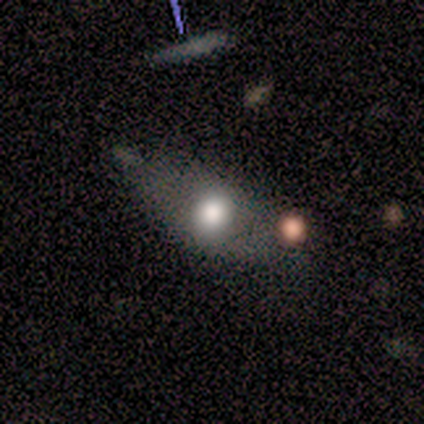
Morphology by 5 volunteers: Overall: smooth (80%). How rounded: in between (75%). Merging: minor disturbance (60%; none 40%).